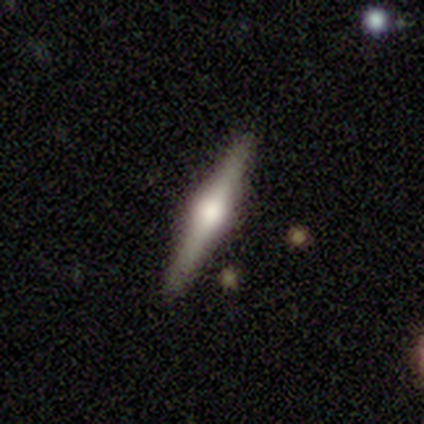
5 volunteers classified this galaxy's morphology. This appears to be a featured or disk galaxy (80%) viewed edge-on (100%) with a rounded central bulge (100%). Merging: none (100%).